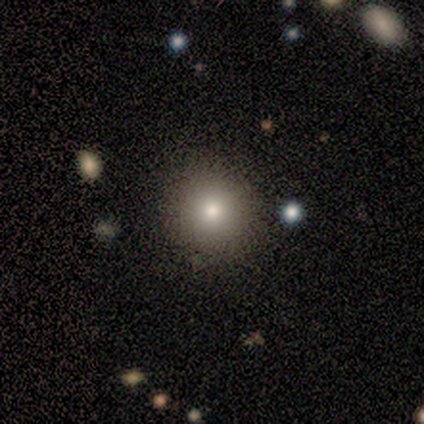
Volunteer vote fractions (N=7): A smooth galaxy with no disk features (100%) that is round (100%).

Vote fractions:
- Smooth or featured? smooth: 100% / featured or disk: 0% / star or artifact: 0%
- How rounded? round: 100% / in between: 0% / cigar-shaped: 0%
- Merging? none: 100% / minor disturbance: 0% / major disturbance: 0% / merger: 0%